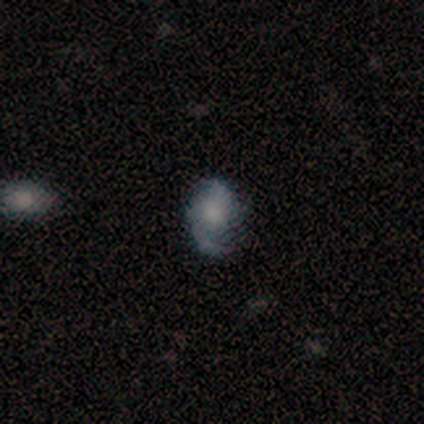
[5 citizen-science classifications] Morphology: type=featured or disk (80%); edge-on=no (100%); bar=no (75%); spiral arms=yes (100%); winding=medium (50%, tied with loose); arm count=2 (100%); bulge=moderate (100%); merging=minor disturbance (75%).